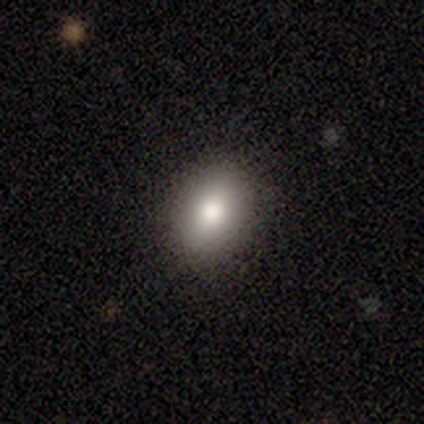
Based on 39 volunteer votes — Smooth or featured? smooth (77%)
How rounded? in between (73%)
Merging? none (92%)